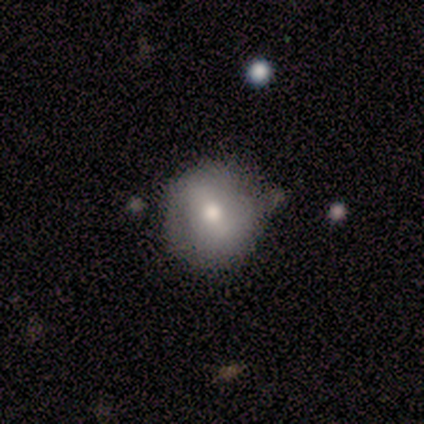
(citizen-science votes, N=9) A smooth galaxy with no disk features (56%) that is round (80%). Merging: minor disturbance (71%).